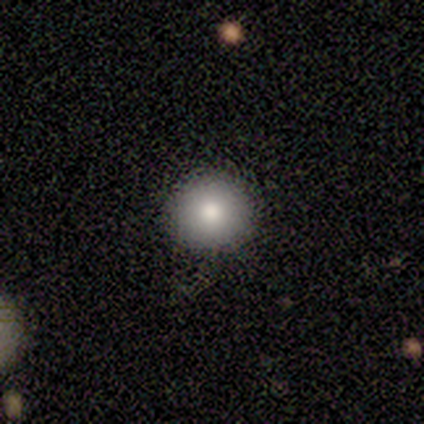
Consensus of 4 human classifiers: Smooth or featured?
  - smooth: 100% *
  - featured or disk: 0%
  - star or artifact: 0%
How rounded?
  - round: 100% *
  - in between: 0%
  - cigar-shaped: 0%
Merging?
  - none: 100% *
  - minor disturbance: 0%
  - major disturbance: 0%
  - merger: 0%